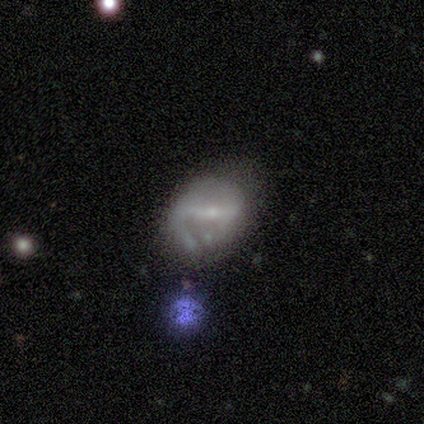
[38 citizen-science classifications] Smooth or featured? 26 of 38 (68%) said featured or disk. Edge-on disk? 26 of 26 (100%) said no. Bar? 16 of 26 (62%) said strong. Spiral arms? 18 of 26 (69%) said yes. Spiral winding? 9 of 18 (50%) said medium. Spiral arm count? 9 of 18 (50%) said 2. Bulge size? 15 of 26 (58%) said small. Merging? 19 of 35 (54%) said none.